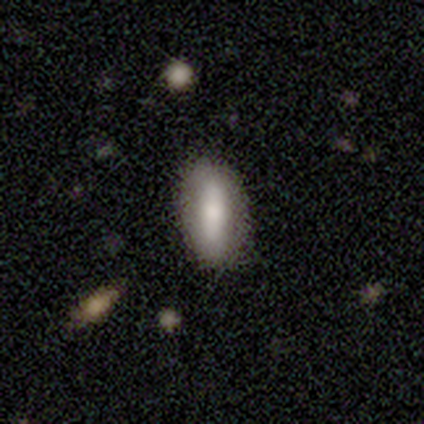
Smooth or featured?
  - smooth: 100% *
  - featured or disk: 0%
  - star or artifact: 0%
How rounded?
  - in between: 80% *
  - cigar-shaped: 20%
  - round: 0%
Merging?
  - none: 80% *
  - minor disturbance: 20%
  - major disturbance: 0%
  - merger: 0%